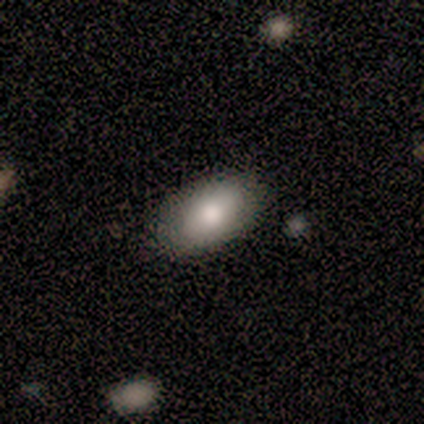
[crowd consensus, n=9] smooth-or-featured: smooth: 89% | featured or disk: 11% | star or artifact: 0%
  how-rounded: in between: 100% | round: 0% | cigar-shaped: 0%
  merging: none: 89% | minor disturbance: 11% | major disturbance: 0% | merger: 0%